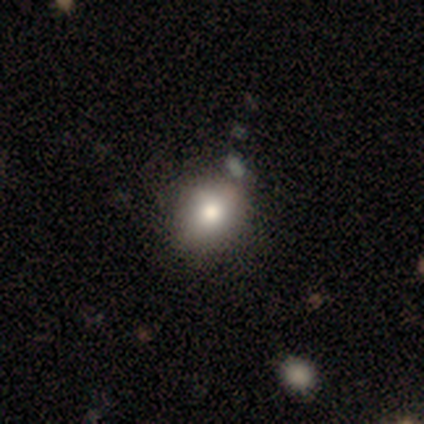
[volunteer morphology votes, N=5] smooth 80%, featured or disk 20%, star or artifact 0%. Down the decision tree: how rounded — round (75%); merging — none (80%).